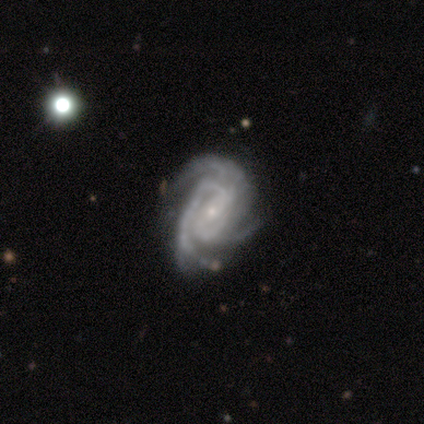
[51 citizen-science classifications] This is clearly a featured or disk galaxy (86%). It is clearly not viewed edge-on (98%). Bar: marginally no (40%). Spiral arm pattern: clearly yes (95%). Spiral arm count: likely 3 (66%). Spiral winding: possibly medium (54%). Central bulge: likely small (74%). Merging: possibly none (52%).